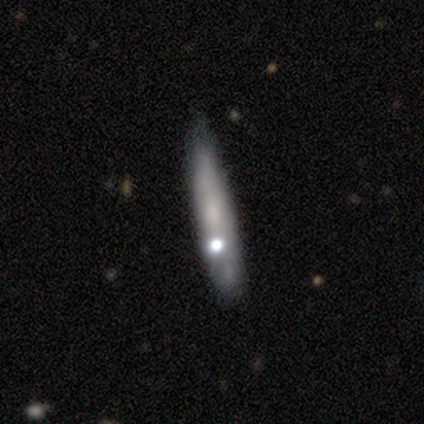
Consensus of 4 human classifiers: featured or disk 100%, smooth 0%, star or artifact 0%. Down the decision tree: edge-on disk — yes (75%); edge-on bulge — none (67%); merging — none (50%, tied with minor disturbance).